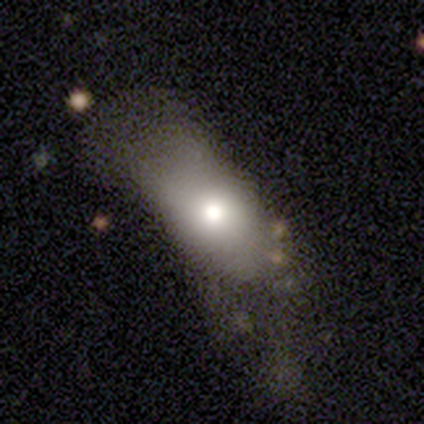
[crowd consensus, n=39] Morphology: type=smooth (77%); roundness=in between (87%); merging=major disturbance (38%).